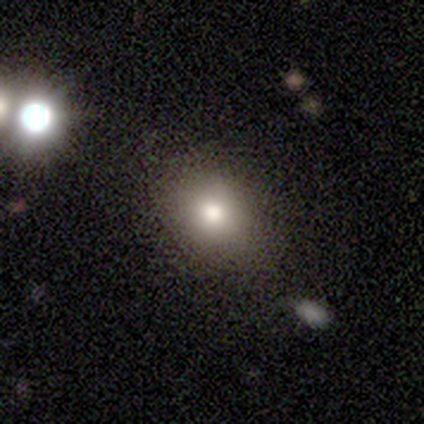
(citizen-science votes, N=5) A smooth galaxy with no disk features (80%) that is round (100%). Merging: none (60%).